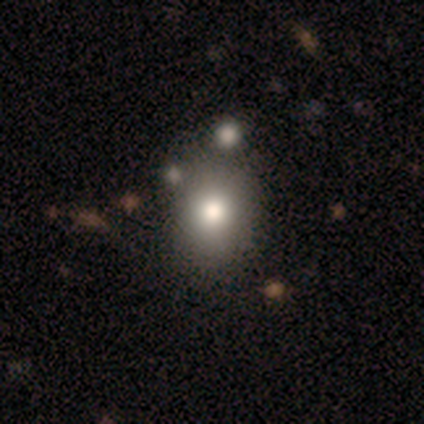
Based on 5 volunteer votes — smooth_or_featured: smooth (p=0.60) [alt: featured or disk p=0.20]
how_rounded: round (p=1.00)
merging: none (p=0.75) [alt: merger p=0.25]